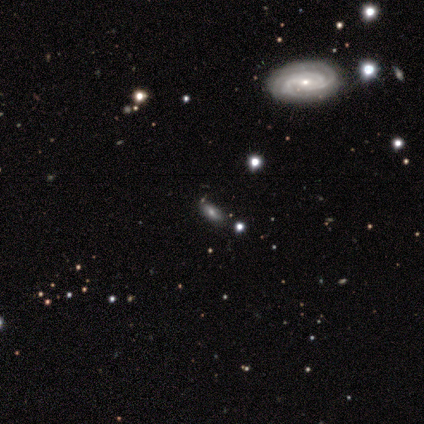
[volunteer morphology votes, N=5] Smooth or featured?
  - featured or disk: 80% *
  - star or artifact: 20%
  - smooth: 0%
Edge-on disk?
  - no: 100% *
  - yes: 0%
Bar?
  - weak: 50% * (tied)
  - no: 50% * (tied)
  - strong: 0%
Spiral arms?
  - yes: 100% *
  - no: 0%
Spiral winding?
  - tight: 75% *
  - medium: 25%
  - loose: 0%
Spiral arm count?
  - 2: 75% *
  - can't tell: 25%
  - 1: 0%
  - 3: 0%
  - 4: 0%
  - more than 4: 0%
Bulge size?
  - moderate: 50% * (tied)
  - small: 50% * (tied)
  - dominant: 0%
  - large: 0%
  - none: 0%
Merging?
  - none: 100% *
  - minor disturbance: 0%
  - major disturbance: 0%
  - merger: 0%